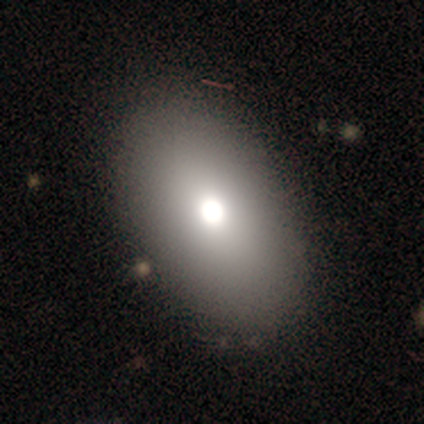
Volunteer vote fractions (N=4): This appears to be a smooth galaxy with no disk features (75%) that is in between round and cigar-shaped (100%). Merging: none (100%).